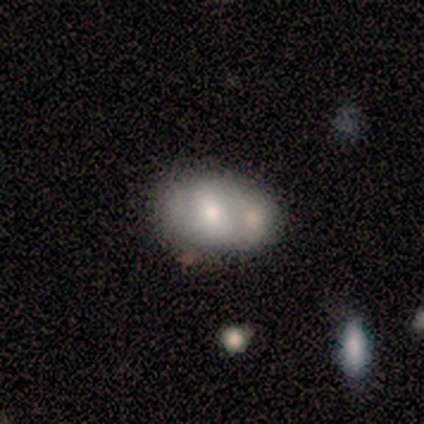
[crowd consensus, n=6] Overall: smooth (50%; featured or disk 33%). How rounded: in between (100%). Merging: minor disturbance (40%, tied with merger).